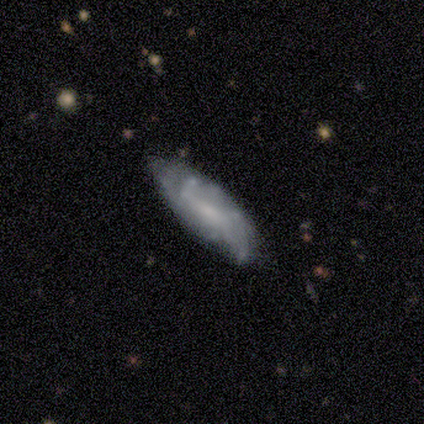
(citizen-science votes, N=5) This appears to be a featured or disk galaxy (60%) with no bar (67%), more than 4 (50%, tied with can't tell) tight (50%, tied with medium) spiral arms (67%) and a moderate central bulge (100%). Merging: none (80%).